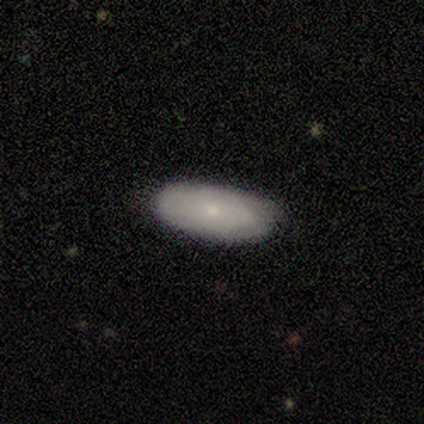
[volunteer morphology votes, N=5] Q: Smooth or featured?
A: smooth (100%)
Q: How rounded?
A: in between (100%)
Q: Merging?
A: none (80%); runner-up: minor disturbance (20%)